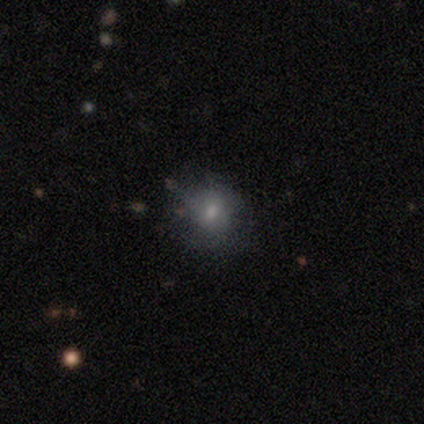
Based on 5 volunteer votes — A smooth galaxy with no disk features (60%) that is round (100%).

Vote fractions:
- Smooth or featured? smooth: 60% / featured or disk: 40% / star or artifact: 0%
- How rounded? round: 100% / in between: 0% / cigar-shaped: 0%
- Merging? none: 80% / minor disturbance: 20% / major disturbance: 0% / merger: 0%